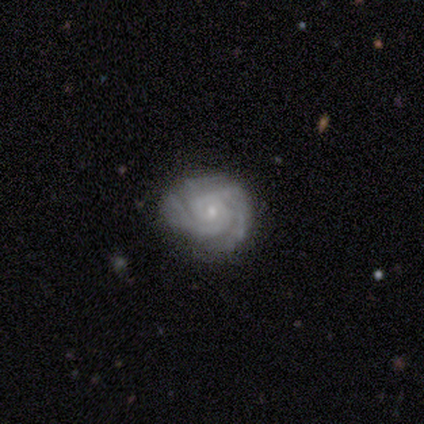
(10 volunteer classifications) Morphology: type=featured or disk (100%); edge-on=no (100%); bar=no (80%); spiral arms=yes (90%); winding=tight (78%); arm count=2 (67%); bulge=small (80%); merging=none (80%).